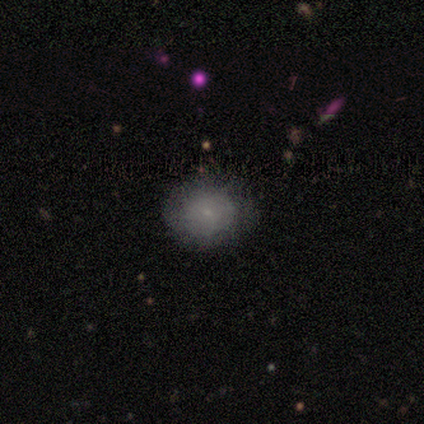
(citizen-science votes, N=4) Q: Smooth or featured?
A: smooth (100%)
Q: How rounded?
A: round (75%); runner-up: in between (25%)
Q: Merging?
A: none (100%)